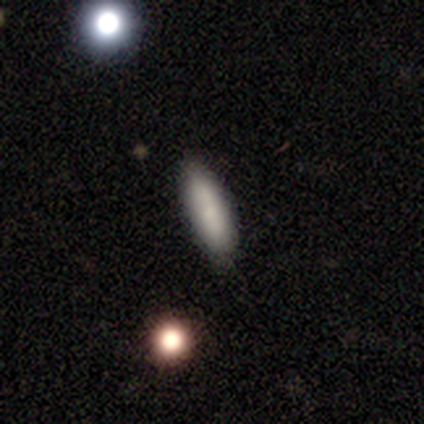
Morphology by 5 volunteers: smooth 80%, star or artifact 20%, featured or disk 0%. Down the decision tree: how rounded — cigar-shaped (75%); merging — none (75%).